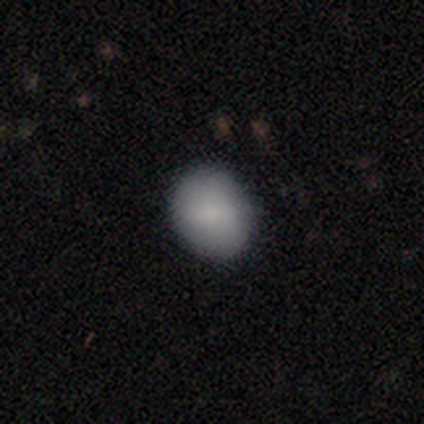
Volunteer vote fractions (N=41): A smooth galaxy with no disk features (85%) that is in between round and cigar-shaped (51%).

Vote fractions:
- Smooth or featured? smooth: 85% / featured or disk: 7% / star or artifact: 7%
- How rounded? in between: 51% / round: 49% / cigar-shaped: 0%
- Merging? none: 89% / minor disturbance: 11% / major disturbance: 0% / merger: 0%